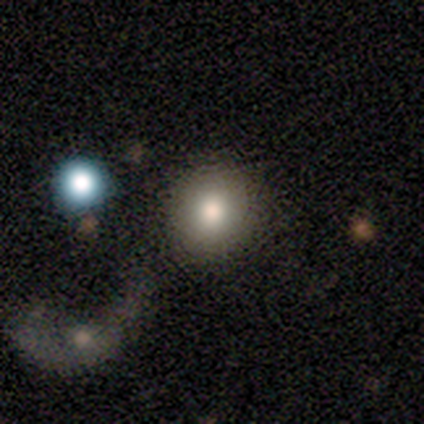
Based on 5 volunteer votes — smooth 80%, featured or disk 20%, star or artifact 0%. Down the decision tree: how rounded — round (100%); merging — none (60%).